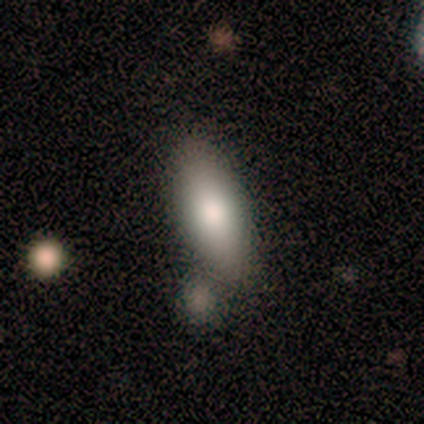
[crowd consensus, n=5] smooth 80%, featured or disk 20%, star or artifact 0%. Down the decision tree: how rounded — in between (100%); merging — none (80%).